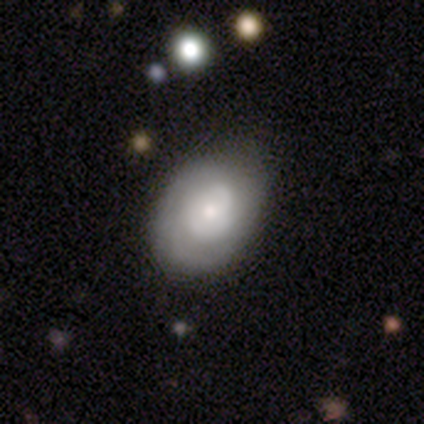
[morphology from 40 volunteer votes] type=featured or disk (60%); edge-on=no (96%); bar=no (65%); spiral arms=yes (70%); winding=tight (56%); arm count=can't tell (44%); bulge=moderate (39%, tied with small); merging=none (65%).